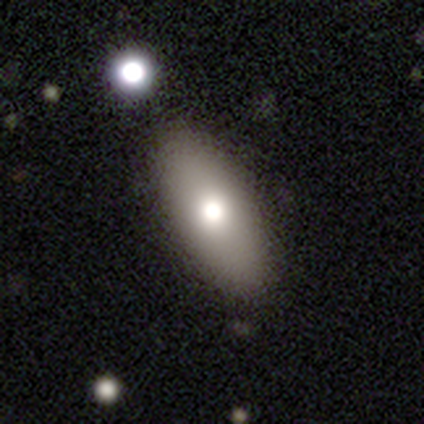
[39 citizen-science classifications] smooth_or_featured: smooth (p=0.82) [alt: featured or disk p=0.10]
how_rounded: in between (p=0.81) [alt: cigar-shaped p=0.19]
merging: none (p=0.83) [alt: minor disturbance p=0.11]